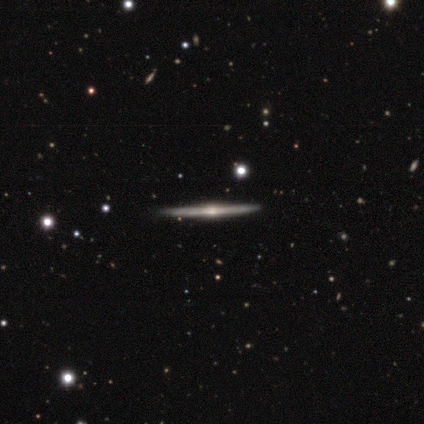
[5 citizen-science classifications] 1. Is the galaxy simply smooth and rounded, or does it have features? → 80% featured or disk, 20% star or artifact, 0% smooth.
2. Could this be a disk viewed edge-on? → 100% yes, 0% no.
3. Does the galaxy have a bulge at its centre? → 100% rounded, 0% boxy, 0% none.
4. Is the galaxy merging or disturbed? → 75% none, 25% merger, 0% minor disturbance, 0% major disturbance.